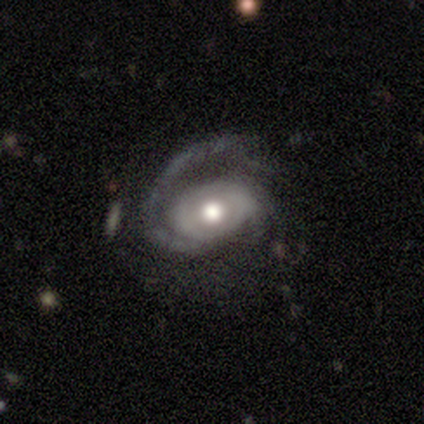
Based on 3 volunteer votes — Morphology: type=featured or disk (100%); edge-on=no (100%); bar=no (100%); spiral arms=yes (100%); winding=medium (67%); arm count=1 (100%); bulge=moderate (67%); merging=none (67%).